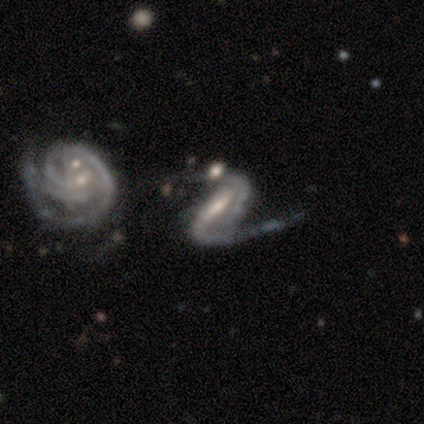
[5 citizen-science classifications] This appears to be a featured or disk galaxy (100%) with a strong bar (80%), 2 (100%) medium (80%) spiral arms (100%) and a moderate central bulge (40%, tied with small). Merging: none (60%).